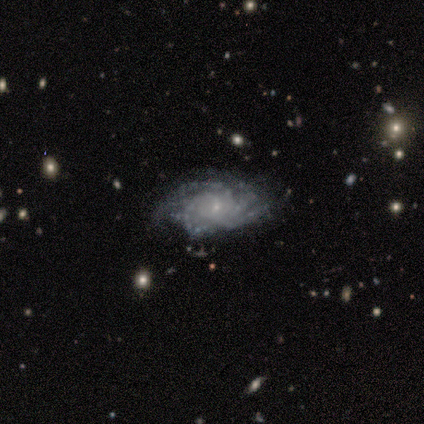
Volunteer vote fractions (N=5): Smooth or featured? 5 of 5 (100%) said featured or disk. Edge-on disk? 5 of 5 (100%) said no. Bar? 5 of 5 (100%) said no. Spiral arms? 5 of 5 (100%) said yes. Spiral winding? 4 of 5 (80%) said tight. Spiral arm count? 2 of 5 (40%) said can't tell. Bulge size? 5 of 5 (100%) said small. Merging? 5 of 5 (100%) said none.